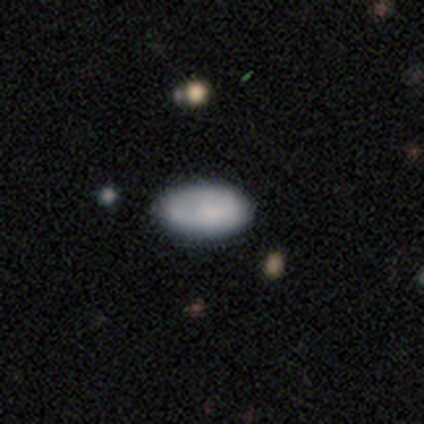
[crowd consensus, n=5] smooth 80%, featured or disk 20%, star or artifact 0%. Down the decision tree: how rounded — in between (100%); merging — none (100%).